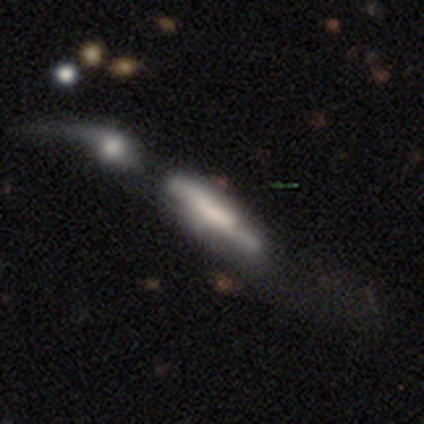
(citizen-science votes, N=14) A smooth galaxy with no disk features (43%, tied with featured or disk) that is cigar-shaped (83%). Merging: merger (58%).